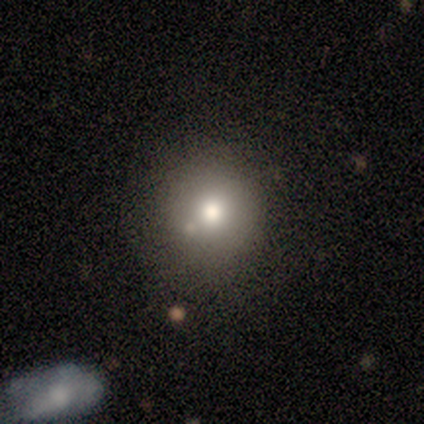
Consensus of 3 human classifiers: Overall: smooth (67%; star or artifact 33%). How rounded: round (100%). Merging: none (50%, tied with minor disturbance).